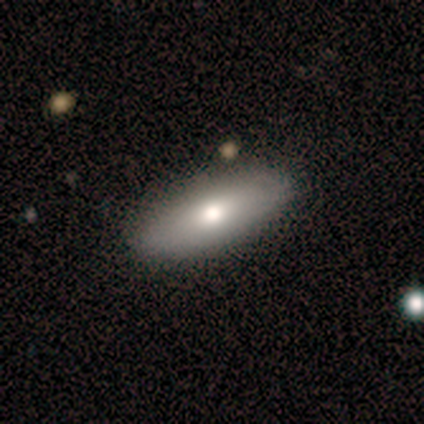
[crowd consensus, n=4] Morphology: type=smooth (100%); roundness=in between (75%); merging=none (100%).